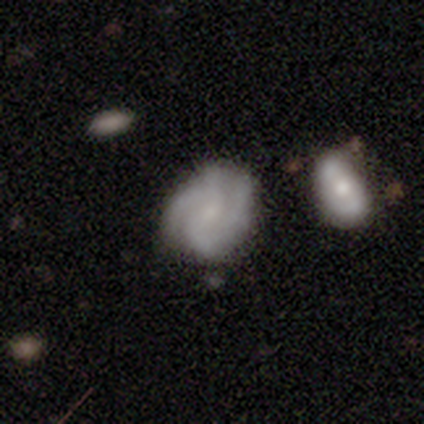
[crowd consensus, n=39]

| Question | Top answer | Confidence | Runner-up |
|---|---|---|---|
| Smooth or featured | featured or disk | 87% | smooth (13%) |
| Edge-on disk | no | 97% | yes (3%) |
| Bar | weak | 45% | tied: no (45%) |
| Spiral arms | yes | 97% | no (3%) |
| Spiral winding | tight | 56% | medium (38%) |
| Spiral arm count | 2 | 34% | 3 (31%) |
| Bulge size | small | 73% | none (21%) |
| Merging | none | 62% | minor disturbance (21%) |